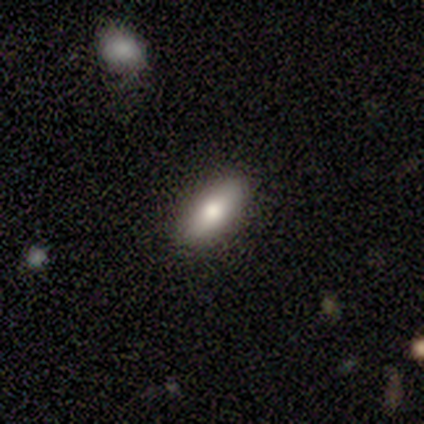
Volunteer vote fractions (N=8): Smooth or featured? smooth (75%)
How rounded? in between (83%)
Merging? none (86%)